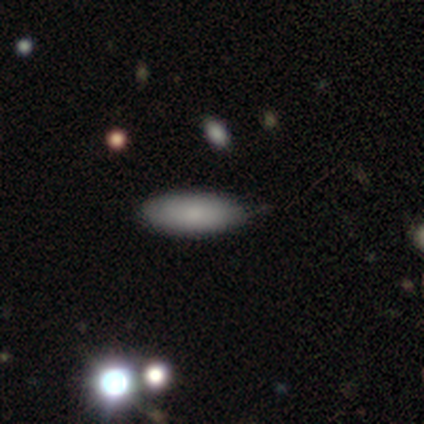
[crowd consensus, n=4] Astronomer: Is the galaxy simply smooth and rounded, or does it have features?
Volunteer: smooth — 100%.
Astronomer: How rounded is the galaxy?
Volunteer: in between — 100%.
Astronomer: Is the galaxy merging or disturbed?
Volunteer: none — 100%.